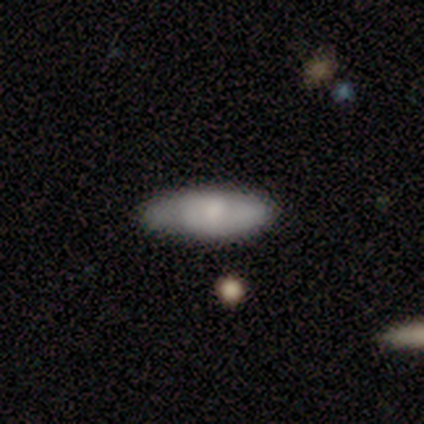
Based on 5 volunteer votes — This is clearly a smooth galaxy (100%). How rounded: clearly in between (80%). Merging: likely none (60%).